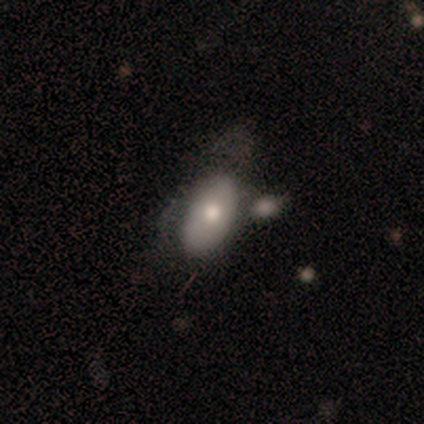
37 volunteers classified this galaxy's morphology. This is likely a smooth galaxy (76%). How rounded: clearly in between (96%). Merging: marginally none (37%).